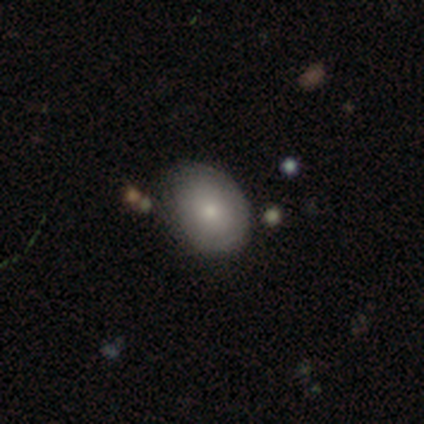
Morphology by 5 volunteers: Q: Smooth or featured?
A: smooth (80%); runner-up: featured or disk (20%)
Q: How rounded?
A: in between (100%)
Q: Merging?
A: none (60%); runner-up: minor disturbance (40%)